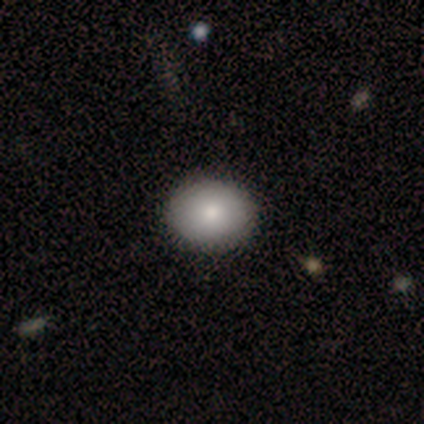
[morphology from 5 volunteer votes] A smooth galaxy with no disk features (100%) that is in between round and cigar-shaped (60%).

Vote fractions:
- Smooth or featured? smooth: 100% / featured or disk: 0% / star or artifact: 0%
- How rounded? in between: 60% / round: 40% / cigar-shaped: 0%
- Merging? none: 100% / minor disturbance: 0% / major disturbance: 0% / merger: 0%